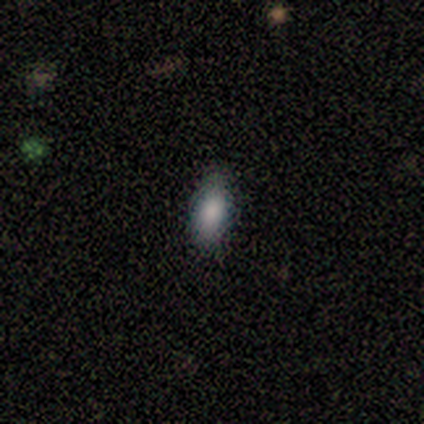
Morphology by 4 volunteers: Smooth or featured?
  - smooth: 100% *
  - featured or disk: 0%
  - star or artifact: 0%
How rounded?
  - in between: 75% *
  - round: 25%
  - cigar-shaped: 0%
Merging?
  - none: 100% *
  - minor disturbance: 0%
  - major disturbance: 0%
  - merger: 0%